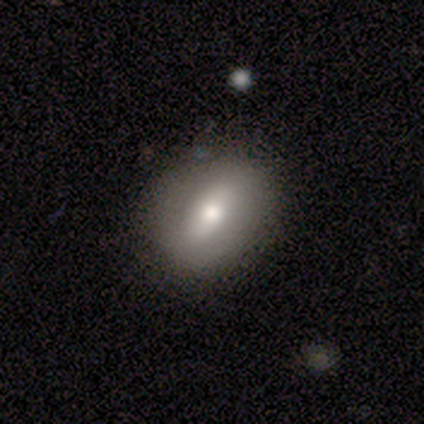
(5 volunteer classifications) Overall: smooth (60%; featured or disk 20%). How rounded: in between (67%; round 33%). Merging: none (75%).